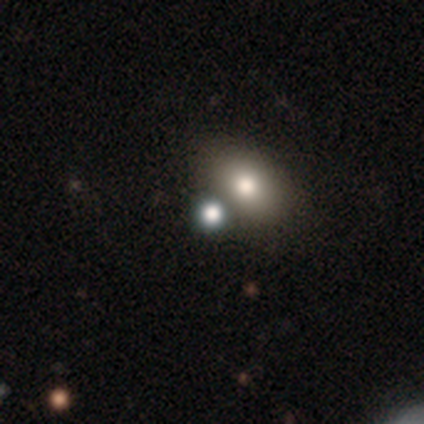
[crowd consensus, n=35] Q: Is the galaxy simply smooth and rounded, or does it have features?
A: smooth — 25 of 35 (71%).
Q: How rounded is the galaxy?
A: round — 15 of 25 (60%).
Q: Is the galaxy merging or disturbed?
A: merger — 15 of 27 (56%).